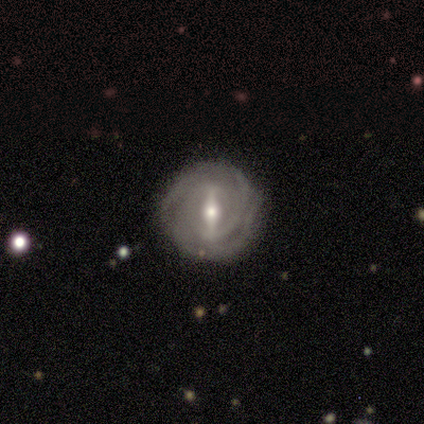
Morphology: type=featured or disk (100%); edge-on=no (100%); bar=strong (50%, tied with weak); spiral arms=yes (75%); winding=tight (100%); arm count=can't tell (67%); bulge=moderate (75%); merging=none (50%, tied with minor disturbance).